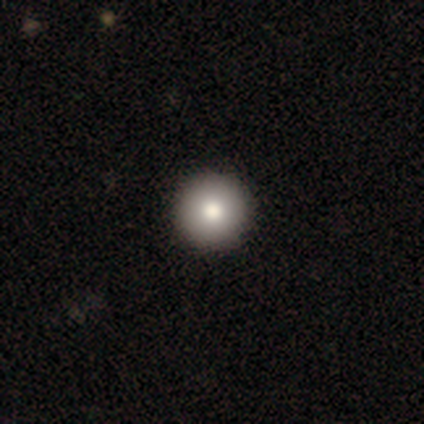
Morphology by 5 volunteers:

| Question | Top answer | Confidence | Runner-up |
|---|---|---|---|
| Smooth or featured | smooth | 80% | star or artifact (20%) |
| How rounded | round | 100% | — |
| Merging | none | 100% | — |